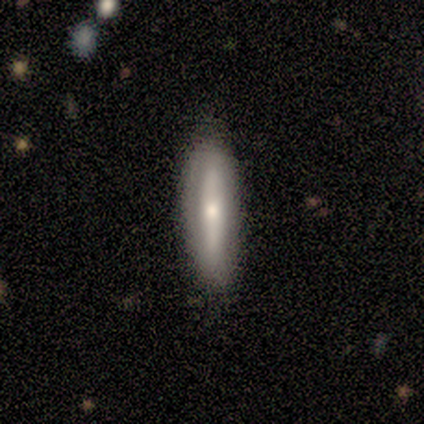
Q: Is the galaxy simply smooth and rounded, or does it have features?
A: featured or disk — 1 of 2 (50%, tied with star or artifact).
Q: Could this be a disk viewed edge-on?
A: yes — 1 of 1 (100%).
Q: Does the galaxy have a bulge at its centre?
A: rounded — 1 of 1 (100%).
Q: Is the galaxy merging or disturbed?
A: none — 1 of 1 (100%).